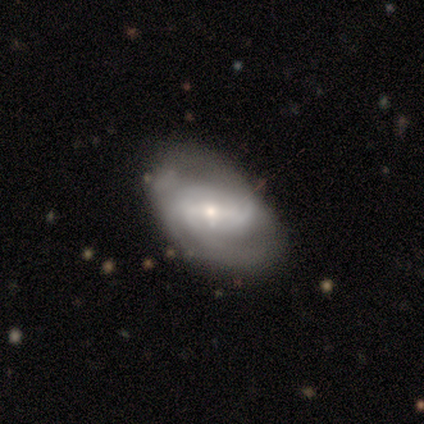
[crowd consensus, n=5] smooth_or_featured: featured or disk (p=0.80) [alt: star or artifact p=0.20]
disk_edge_on: no (p=1.00)
bar: strong (p=0.50) [tied with: weak p=0.50]
has_spiral_arms: yes (p=1.00)
spiral_winding: tight (p=0.50) [tied with: loose p=0.50]
spiral_arm_count: can't tell (p=0.75) [alt: 3 p=0.25]
bulge_size: small (p=0.75) [alt: moderate p=0.25]
merging: none (p=0.75) [alt: major disturbance p=0.25]